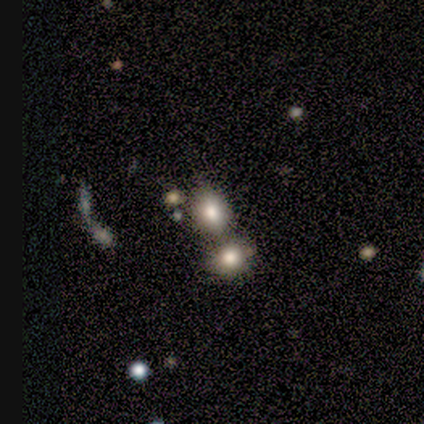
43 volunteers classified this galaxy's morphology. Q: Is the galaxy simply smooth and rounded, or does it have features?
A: smooth — 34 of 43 (79%).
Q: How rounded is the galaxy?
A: in between — 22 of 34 (65%).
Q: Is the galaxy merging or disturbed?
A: merger — 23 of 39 (59%).